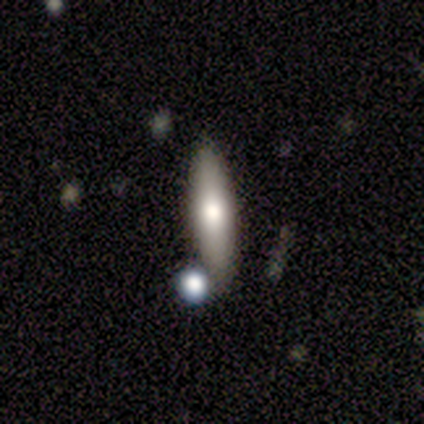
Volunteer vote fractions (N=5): Smooth or featured?
  - smooth: 80% *
  - featured or disk: 20%
  - star or artifact: 0%
How rounded?
  - cigar-shaped: 75% *
  - in between: 25%
  - round: 0%
Merging?
  - none: 60% *
  - minor disturbance: 40%
  - major disturbance: 0%
  - merger: 0%